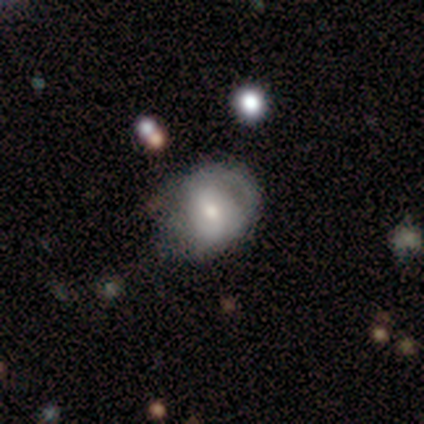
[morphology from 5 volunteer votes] featured or disk 100%, smooth 0%, star or artifact 0%. Down the decision tree: edge-on disk — no (100%); bar — weak (40%, tied with no); spiral arms — yes (60%); spiral arm count — 2 (67%); spiral winding — medium (67%); bulge size — moderate (40%, tied with small); merging — none (40%, tied with minor disturbance).